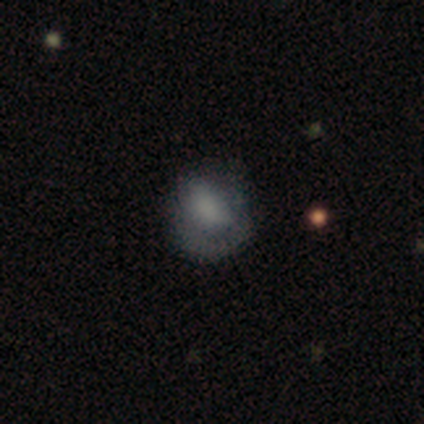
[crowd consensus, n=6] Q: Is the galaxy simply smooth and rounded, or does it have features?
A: featured or disk — 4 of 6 (67%).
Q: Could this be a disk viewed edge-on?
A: no — 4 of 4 (100%).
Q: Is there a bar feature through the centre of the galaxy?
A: no — 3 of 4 (75%).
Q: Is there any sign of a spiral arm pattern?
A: yes — 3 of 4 (75%).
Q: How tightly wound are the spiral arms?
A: tight — 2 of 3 (67%).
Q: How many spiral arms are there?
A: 1 — 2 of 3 (67%).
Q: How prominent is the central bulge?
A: none — 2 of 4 (50%).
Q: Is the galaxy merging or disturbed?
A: none — 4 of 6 (67%).